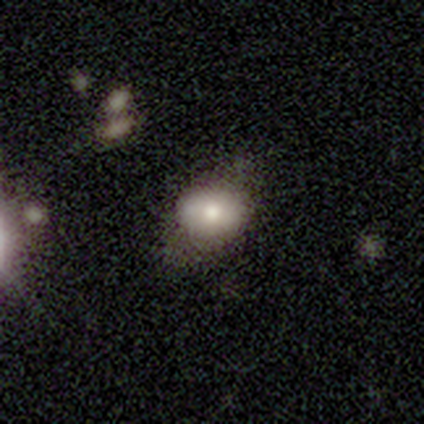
Q: Smooth or featured?
A: smooth (60%); runner-up: featured or disk (20%)
Q: How rounded?
A: in between (100%)
Q: Merging?
A: none (75%); runner-up: major disturbance (25%)